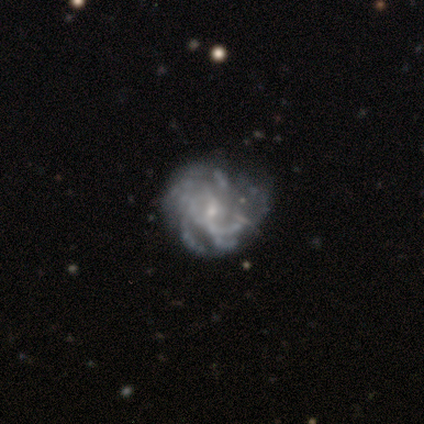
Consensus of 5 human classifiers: This is clearly a featured or disk galaxy (80%). It is clearly not viewed edge-on (100%). Bar: likely no (75%). Spiral arm pattern: likely yes (75%). Spiral arm count: likely can't tell (67%). Spiral winding: clearly tight (100%). Central bulge: clearly small (100%). Merging: possibly none (50%, tied with minor disturbance).